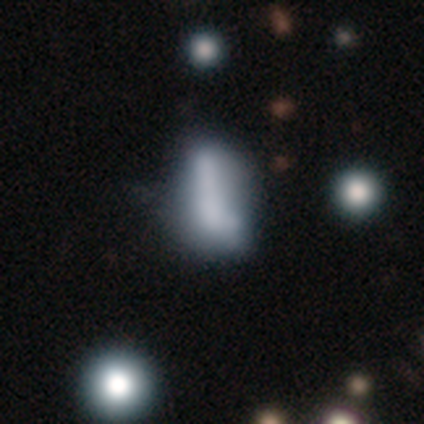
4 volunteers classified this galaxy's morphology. A featured or disk galaxy (75%) with no bar (100%), no spiral arms (100%) and no central bulge (67%).

Vote fractions:
- Smooth or featured? featured or disk: 75% / smooth: 25% / star or artifact: 0%
- Edge-on disk? no: 100% / yes: 0%
- Bar? no: 100% / strong: 0% / weak: 0%
- Spiral arms? no: 100% / yes: 0%
- Bulge size? none: 67% / large: 33% / dominant: 0% / moderate: 0% / small: 0%
- Merging? major disturbance: 50% / none: 25% / merger: 25% / minor disturbance: 0%